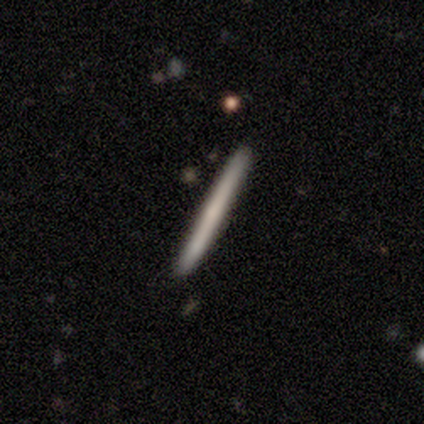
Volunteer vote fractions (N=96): This is possibly a smooth galaxy (57%). How rounded: clearly cigar-shaped (100%). Merging: clearly none (95%).